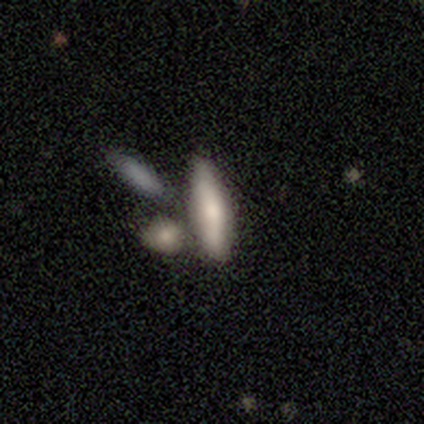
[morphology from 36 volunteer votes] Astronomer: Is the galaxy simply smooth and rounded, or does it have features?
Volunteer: featured or disk — 53% (runner-up: smooth, 36%).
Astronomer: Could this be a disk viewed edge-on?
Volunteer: yes — 79%.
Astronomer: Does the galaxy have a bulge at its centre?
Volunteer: rounded — 73%.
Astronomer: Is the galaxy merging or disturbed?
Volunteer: none — 47% (runner-up: merger, 25%).